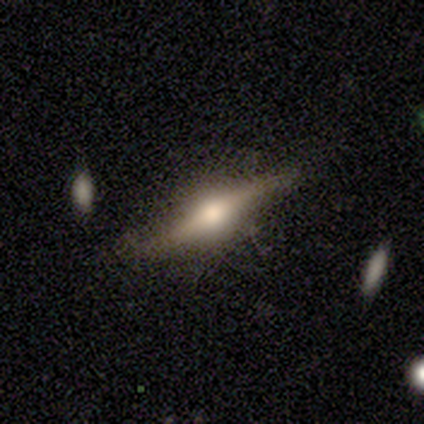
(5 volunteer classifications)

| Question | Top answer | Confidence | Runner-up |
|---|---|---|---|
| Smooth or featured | featured or disk | 100% | — |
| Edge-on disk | yes | 100% | — |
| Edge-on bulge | rounded | 100% | — |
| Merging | none | 100% | — |